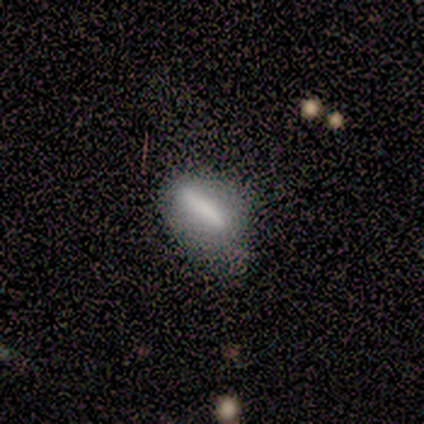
A smooth galaxy with no disk features (100%) that is in between round and cigar-shaped (80%). Merging: none (40%, tied with minor disturbance).